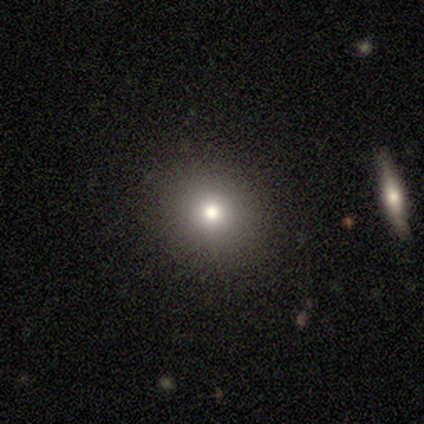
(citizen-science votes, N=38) Smooth or featured: smooth — 79% (star or artifact — 16%)
How rounded: round — 93% (in between — 7%)
Merging: none — 97% (minor disturbance — 3%)